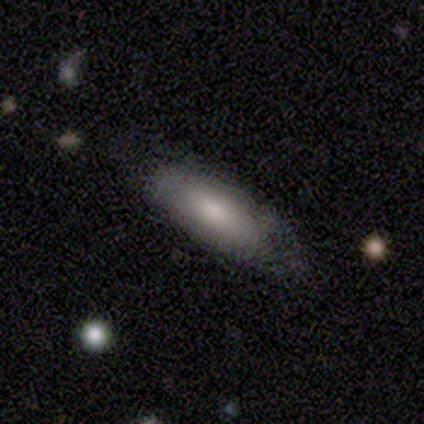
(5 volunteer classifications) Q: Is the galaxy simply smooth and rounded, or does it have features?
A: smooth — 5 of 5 (100%).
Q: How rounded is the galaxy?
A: cigar-shaped — 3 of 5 (60%).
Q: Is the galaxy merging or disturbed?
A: none — 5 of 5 (100%).